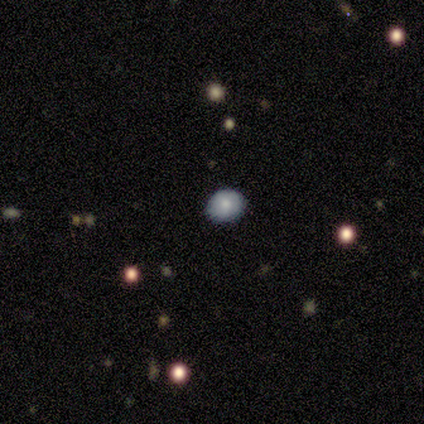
A smooth galaxy with no disk features (100%) that is in between round and cigar-shaped (60%).

Vote fractions:
- Smooth or featured? smooth: 100% / featured or disk: 0% / star or artifact: 0%
- How rounded? in between: 60% / round: 40% / cigar-shaped: 0%
- Merging? none: 100% / minor disturbance: 0% / major disturbance: 0% / merger: 0%